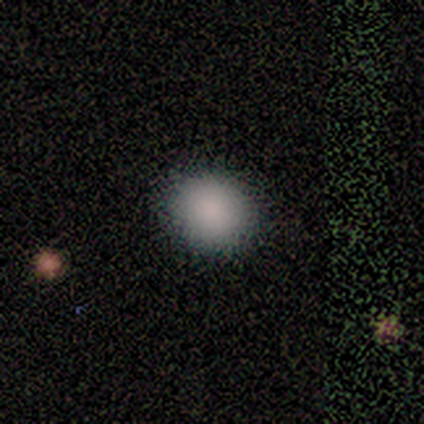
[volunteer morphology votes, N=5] Overall: smooth (80%). How rounded: in between (75%). Merging: none (100%).